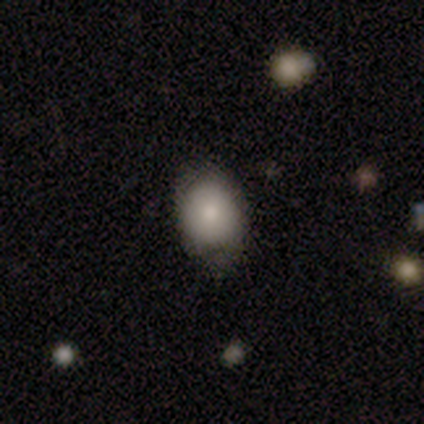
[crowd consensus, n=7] This appears to be a smooth galaxy with no disk features (71%) that is in between round and cigar-shaped (60%). Merging: none (57%).